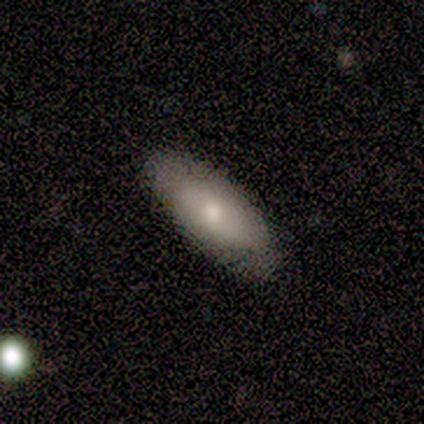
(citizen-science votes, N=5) Smooth or featured? 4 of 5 (80%) said smooth. How rounded? 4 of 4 (100%) said in between. Merging? 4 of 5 (80%) said none.